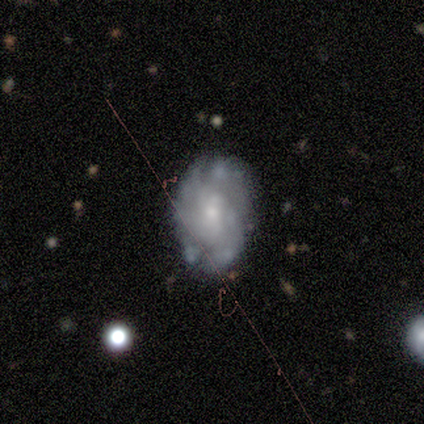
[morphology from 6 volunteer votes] A featured or disk galaxy (67%) with no bar (75%), tight (67%) spiral arms (75%) and a moderate central bulge (75%). Merging: none (40%, tied with minor disturbance).